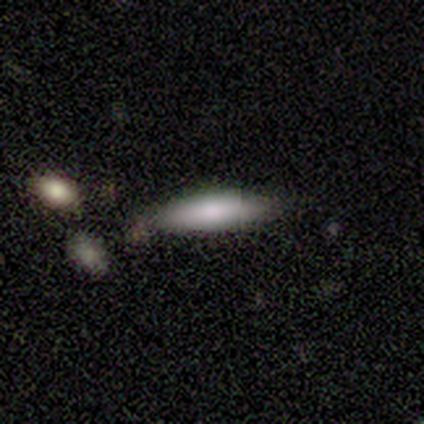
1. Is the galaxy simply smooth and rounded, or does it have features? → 100% smooth, 0% featured or disk, 0% star or artifact.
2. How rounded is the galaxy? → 60% cigar-shaped, 40% in between, 0% round.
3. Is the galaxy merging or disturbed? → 80% none, 20% minor disturbance, 0% major disturbance, 0% merger.